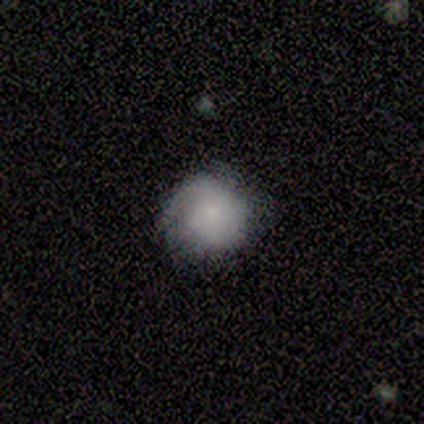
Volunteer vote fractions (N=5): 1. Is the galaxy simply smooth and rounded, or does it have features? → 80% smooth, 20% featured or disk, 0% star or artifact.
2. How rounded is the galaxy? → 100% round, 0% in between, 0% cigar-shaped.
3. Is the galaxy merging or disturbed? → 80% none, 20% minor disturbance, 0% major disturbance, 0% merger.